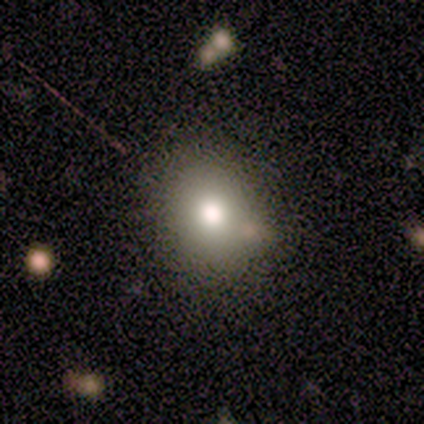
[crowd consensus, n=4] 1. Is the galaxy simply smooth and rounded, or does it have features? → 100% smooth, 0% featured or disk, 0% star or artifact.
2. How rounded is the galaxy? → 100% round, 0% in between, 0% cigar-shaped.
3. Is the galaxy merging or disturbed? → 100% none, 0% minor disturbance, 0% major disturbance, 0% merger.